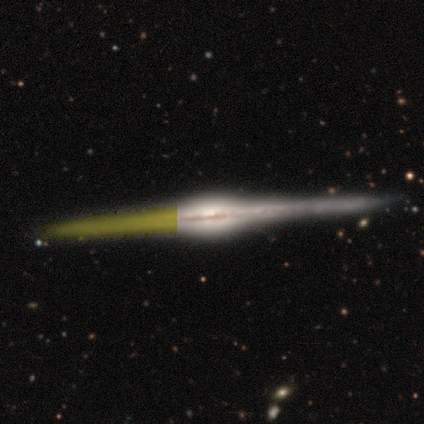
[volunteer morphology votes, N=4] Overall: featured or disk (100%). Edge-on disk: yes (100%). Edge-on bulge: rounded (100%). Merging: none (100%).